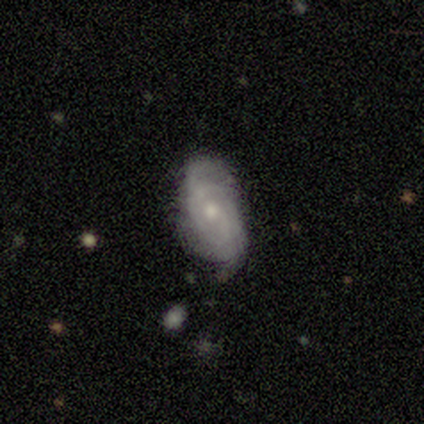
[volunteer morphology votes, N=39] Q: Smooth or featured?
A: featured or disk (67%); runner-up: smooth (33%)
Q: Edge-on disk?
A: no (92%); runner-up: yes (8%)
Q: Bar?
A: no (67%); runner-up: weak (29%)
Q: Spiral arms?
A: yes (75%); runner-up: no (25%)
Q: Spiral winding?
A: tight (44%); tied with: medium (44%)
Q: Spiral arm count?
A: can't tell (50%); runner-up: 2 (22%)
Q: Bulge size?
A: small (71%); runner-up: moderate (21%)
Q: Merging?
A: none (51%); runner-up: minor disturbance (38%)